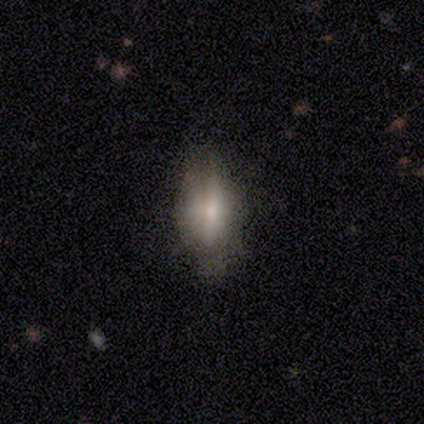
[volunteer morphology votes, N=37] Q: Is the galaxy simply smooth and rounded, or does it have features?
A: smooth — 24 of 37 (65%).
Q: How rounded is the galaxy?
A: in between — 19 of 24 (79%).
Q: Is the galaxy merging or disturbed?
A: none — 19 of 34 (56%).